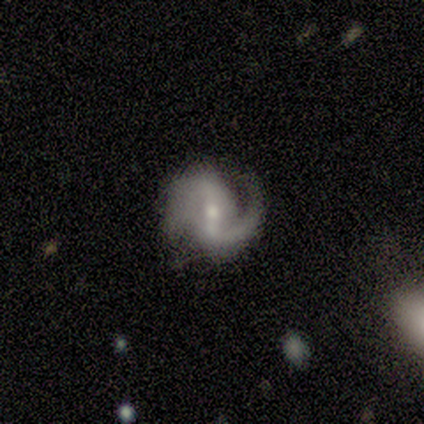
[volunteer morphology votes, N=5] Smooth or featured: featured or disk — 80% (smooth — 20%)
Edge-on disk: no — 100%
Bar: strong — 50% (weak — 25%)
Spiral arms: yes — 100%
Spiral winding: tight — 50% (medium — 25%)
Spiral arm count: 2 — 100%
Bulge size: moderate — 50% (tied with small — 50%)
Merging: none — 40% (tied with minor disturbance — 40%)